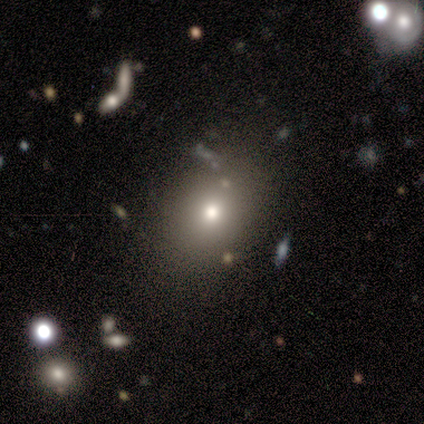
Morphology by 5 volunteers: Smooth or featured? 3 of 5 (60%) said smooth. How rounded? 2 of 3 (67%) said in between. Merging? 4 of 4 (100%) said none.